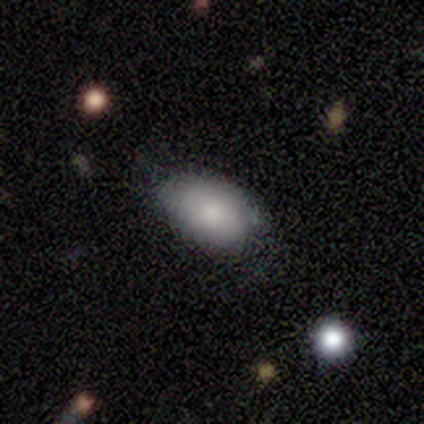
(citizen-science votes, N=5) smooth 60%, featured or disk 40%, star or artifact 0%. Down the decision tree: how rounded — in between (100%); merging — none (60%).